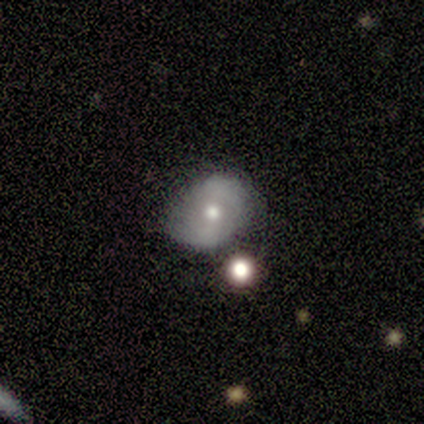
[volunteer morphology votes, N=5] Q: Smooth or featured?
A: featured or disk (100%)
Q: Edge-on disk?
A: no (100%)
Q: Bar?
A: no (60%); runner-up: strong (20%)
Q: Spiral arms?
A: no (60%); runner-up: yes (40%)
Q: Bulge size?
A: moderate (60%); runner-up: small (40%)
Q: Merging?
A: none (80%); runner-up: minor disturbance (20%)